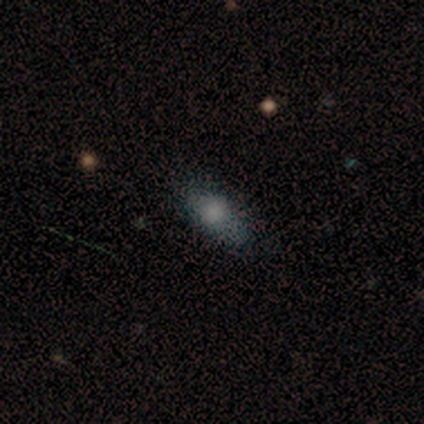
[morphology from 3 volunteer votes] type=smooth (100%); roundness=in between (67%); merging=none (67%).